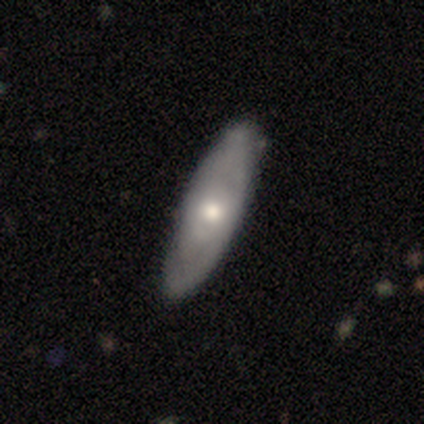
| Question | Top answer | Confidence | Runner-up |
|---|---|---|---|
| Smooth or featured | smooth | 75% | featured or disk (25%) |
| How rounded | in between | 67% | cigar-shaped (33%) |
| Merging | none | 75% | minor disturbance (25%) |